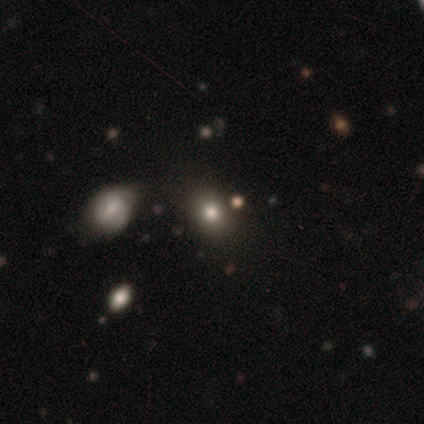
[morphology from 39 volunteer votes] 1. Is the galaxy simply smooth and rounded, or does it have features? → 85% smooth, 8% featured or disk, 8% star or artifact.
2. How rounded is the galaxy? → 55% round, 45% in between, 0% cigar-shaped.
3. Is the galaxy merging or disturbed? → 86% none, 8% major disturbance, 3% minor disturbance, 3% merger.